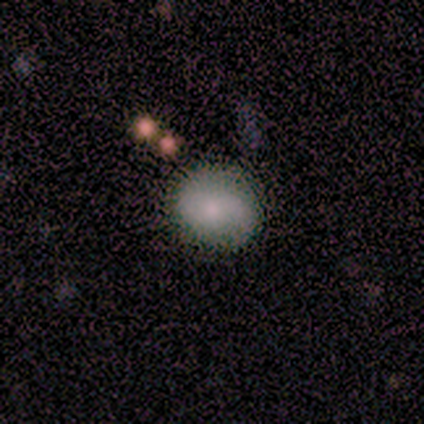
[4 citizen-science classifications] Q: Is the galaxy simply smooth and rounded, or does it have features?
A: smooth — 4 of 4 (100%).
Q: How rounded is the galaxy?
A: in between — 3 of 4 (75%).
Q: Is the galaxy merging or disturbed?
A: none — 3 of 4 (75%).